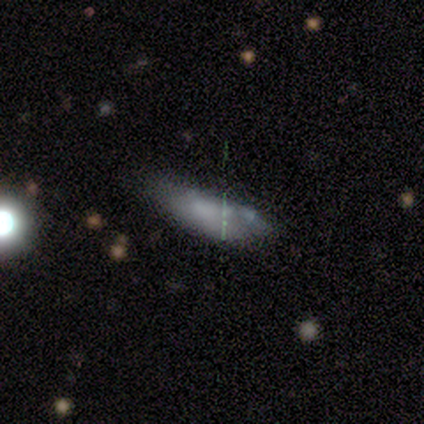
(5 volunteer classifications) smooth_or_featured: smooth (p=0.60) [alt: featured or disk p=0.20]
how_rounded: in between (p=0.67) [alt: cigar-shaped p=0.33]
merging: minor disturbance (p=0.50) [alt: none p=0.25]